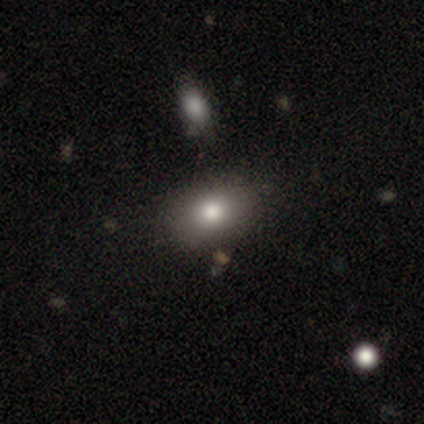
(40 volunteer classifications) A smooth galaxy with no disk features (82%) that is in between round and cigar-shaped (73%).

Vote fractions:
- Smooth or featured? smooth: 82% / star or artifact: 12% / featured or disk: 5%
- How rounded? in between: 73% / round: 27% / cigar-shaped: 0%
- Merging? none: 69% / minor disturbance: 17% / merger: 9% / major disturbance: 6%